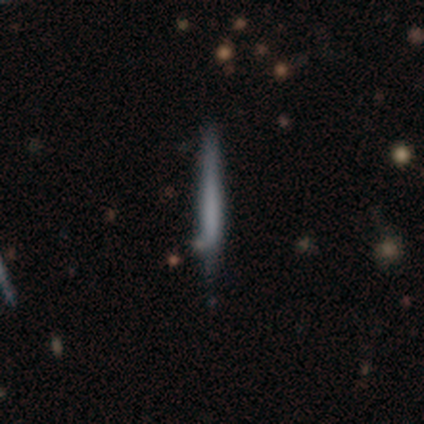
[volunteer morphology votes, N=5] smooth-or-featured: smooth: 60% | featured or disk: 20% | star or artifact: 20%
  how-rounded: cigar-shaped: 100% | round: 0% | in between: 0%
  merging: none: 75% | minor disturbance: 25% | major disturbance: 0% | merger: 0%